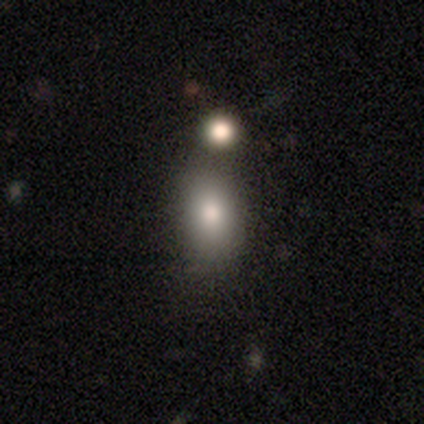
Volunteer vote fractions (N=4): Morphology: type=smooth (75%); roundness=in between (100%); merging=none (50%, tied with minor disturbance).